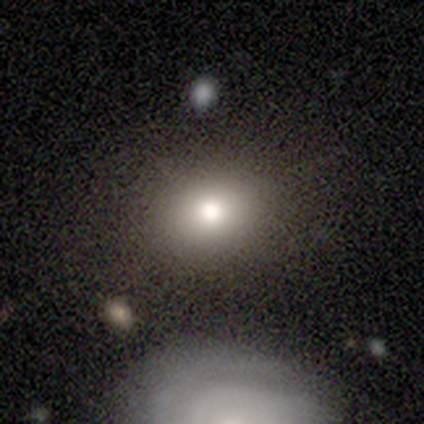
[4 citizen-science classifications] Morphology: type=smooth (50%, tied with star or artifact); roundness=round (50%, tied with in between); merging=none (50%, tied with minor disturbance).